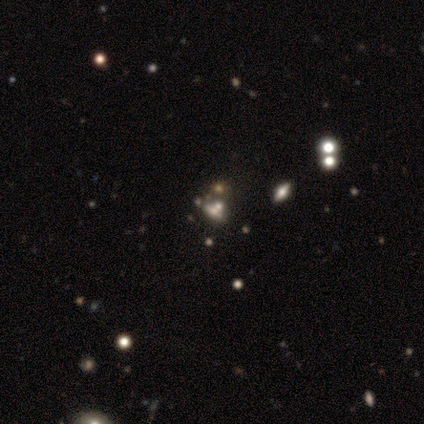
This is possibly a star or artifact rather than a galaxy (55%).